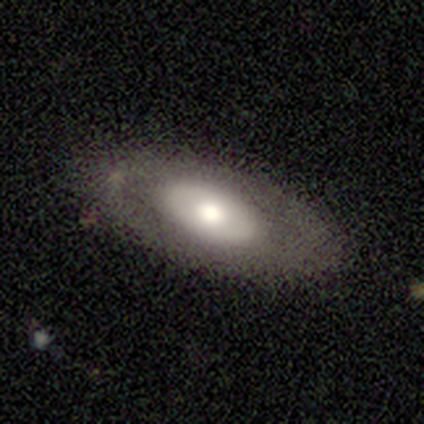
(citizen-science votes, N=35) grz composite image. It shows a smooth galaxy with no disk features (54%) that is in between round and cigar-shaped (100%). Merging: none (83%).